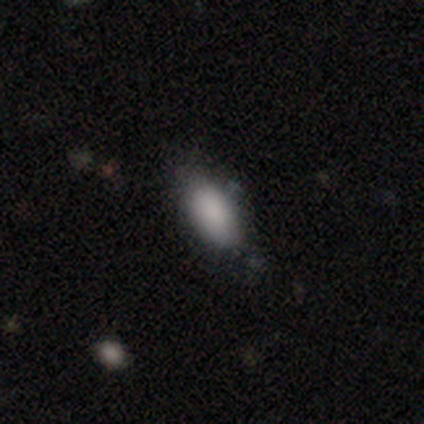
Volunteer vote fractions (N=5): This is clearly a smooth galaxy (80%). How rounded: clearly in between (100%). Merging: likely none (75%).